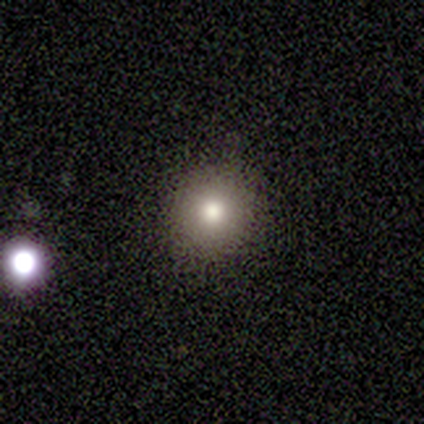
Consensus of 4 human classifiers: Smooth or featured? 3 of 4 (75%) said smooth. How rounded? 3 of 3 (100%) said round. Merging? 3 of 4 (75%) said none.